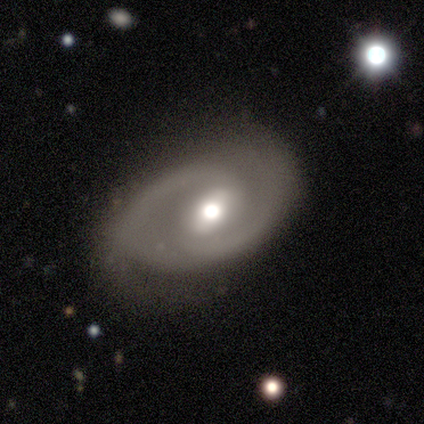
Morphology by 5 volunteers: A featured or disk galaxy (60%) with a weak bar (67%), 2 (100%) medium (67%) spiral arms (100%) and a moderate central bulge (100%).

Vote fractions:
- Smooth or featured? featured or disk: 60% / smooth: 20% / star or artifact: 20%
- Edge-on disk? no: 100% / yes: 0%
- Bar? weak: 67% / strong: 33% / no: 0%
- Spiral arms? yes: 100% / no: 0%
- Spiral winding? medium: 67% / tight: 33% / loose: 0%
- Spiral arm count? 2: 100% / 1: 0% / 3: 0% / 4: 0% / more than 4: 0% / can't tell: 0%
- Bulge size? moderate: 100% / dominant: 0% / large: 0% / small: 0% / none: 0%
- Merging? none: 75% / major disturbance: 25% / minor disturbance: 0% / merger: 0%